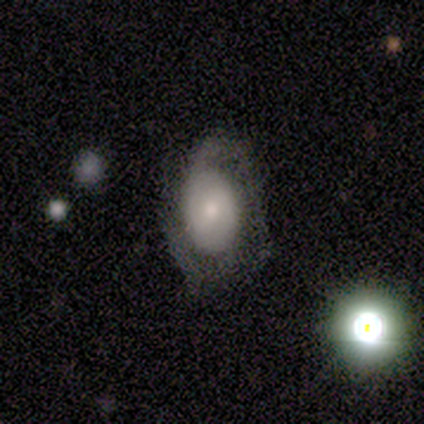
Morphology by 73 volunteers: A featured or disk galaxy (70%) with no bar (65%), 2 (46%) tight (49%) spiral arms (81%) and a moderate central bulge (42%). Merging: none (51%).